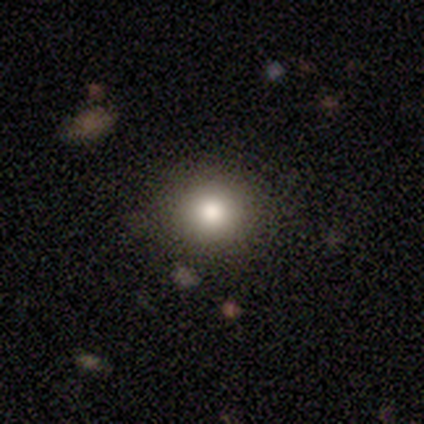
smooth_or_featured: smooth (p=0.75) [alt: featured or disk p=0.25]
how_rounded: round (p=1.00)
merging: none (p=1.00)